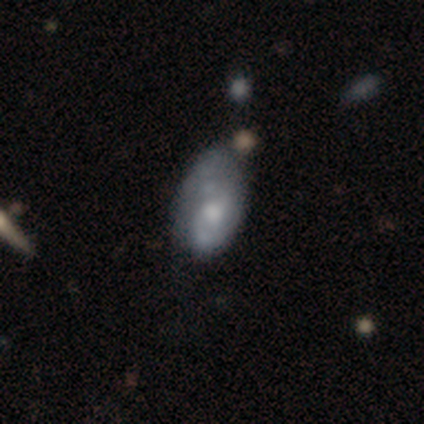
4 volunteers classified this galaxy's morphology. smooth_or_featured: smooth (p=0.50) [tied with: featured or disk p=0.50]
how_rounded: in between (p=1.00)
merging: minor disturbance (p=0.50) [tied with: major disturbance p=0.50]